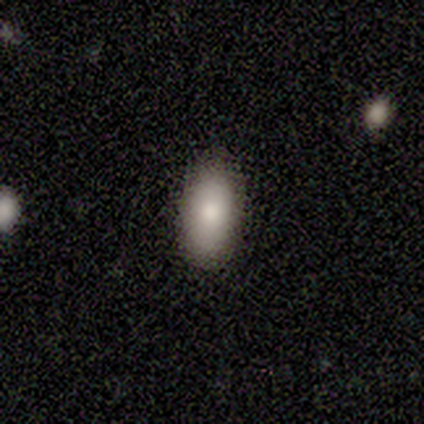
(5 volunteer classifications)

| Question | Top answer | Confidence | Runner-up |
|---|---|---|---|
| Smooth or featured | smooth | 100% | — |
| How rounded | in between | 80% | round (20%) |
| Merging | none | 100% | — |